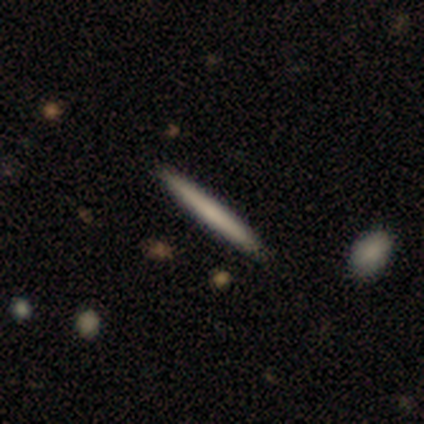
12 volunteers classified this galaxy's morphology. A smooth galaxy with no disk features (83%) that is cigar-shaped (100%). Merging: none (91%).